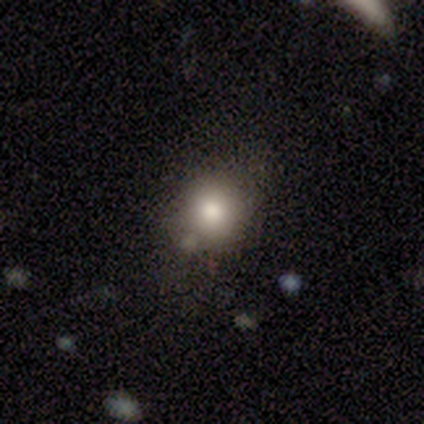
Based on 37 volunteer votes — A smooth galaxy with no disk features (73%) that is round (74%).

Vote fractions:
- Smooth or featured? smooth: 73% / featured or disk: 14% / star or artifact: 14%
- How rounded? round: 74% / in between: 22% / cigar-shaped: 4%
- Merging? none: 53% / minor disturbance: 22% / merger: 22% / major disturbance: 3%